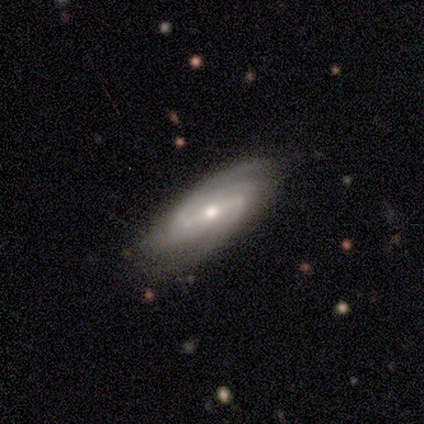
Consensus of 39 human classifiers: A featured or disk galaxy (85%) with a weak bar (45%), 2 (43%) tight (43%, tied with medium) spiral arms (97%) and a moderate central bulge (58%).

Vote fractions:
- Smooth or featured? featured or disk: 85% / smooth: 8% / star or artifact: 8%
- Edge-on disk? no: 94% / yes: 6%
- Bar? weak: 45% / strong: 42% / no: 13%
- Spiral arms? yes: 97% / no: 3%
- Spiral winding? tight: 43% (tied) / medium: 43% (tied) / loose: 13%
- Spiral arm count? 2: 43% / 3: 27% / can't tell: 17% / 4: 13% / 1: 0% / more than 4: 0%
- Bulge size? moderate: 58% / small: 39% / none: 3% / dominant: 0% / large: 0%
- Merging? none: 75% / minor disturbance: 25% / major disturbance: 0% / merger: 0%